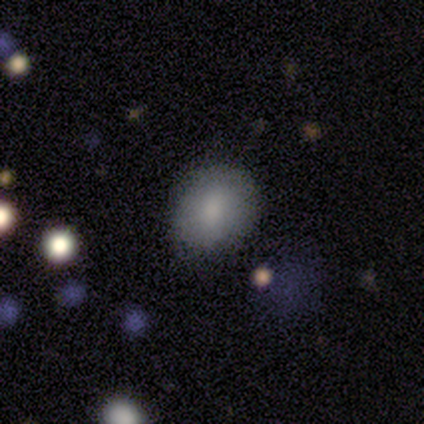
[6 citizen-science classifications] Volunteers were most divided on "how rounded": round: 80%, in between: 20%, cigar-shaped: 0%. More confident: merging — none (100%); smooth or featured — smooth (83%).